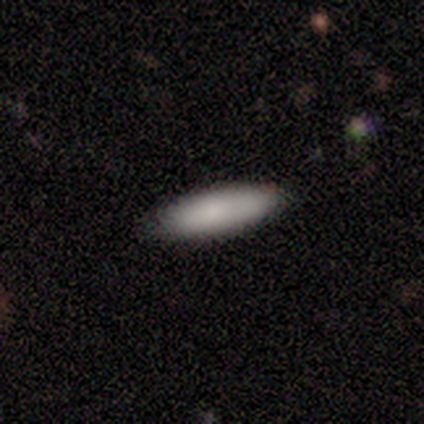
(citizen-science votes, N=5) Morphology: type=smooth (60%); roundness=cigar-shaped (67%); merging=none (100%).